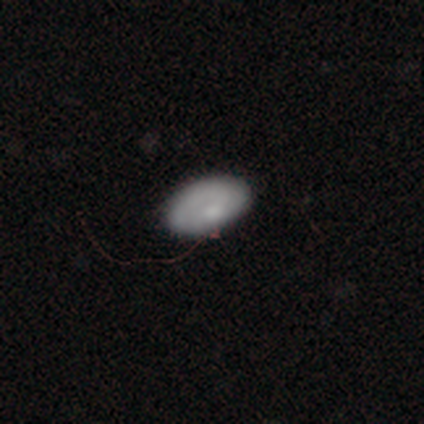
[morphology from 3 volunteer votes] This is marginally a smooth galaxy (33%, tied with featured or disk and star or artifact). How rounded: clearly in between (100%). Merging: clearly minor disturbance (100%).